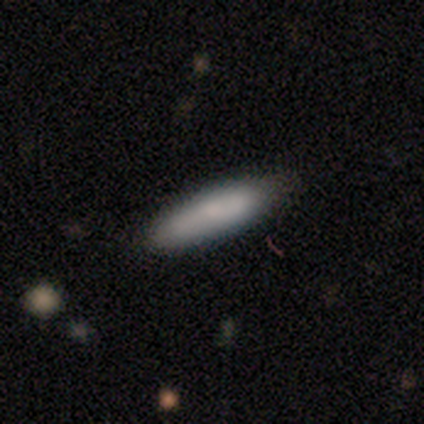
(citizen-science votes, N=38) smooth-or-featured: smooth: 82% | featured or disk: 18% | star or artifact: 0%
  how-rounded: cigar-shaped: 77% | in between: 19% | round: 3%
  merging: none: 79% | minor disturbance: 16% | merger: 5% | major disturbance: 0%